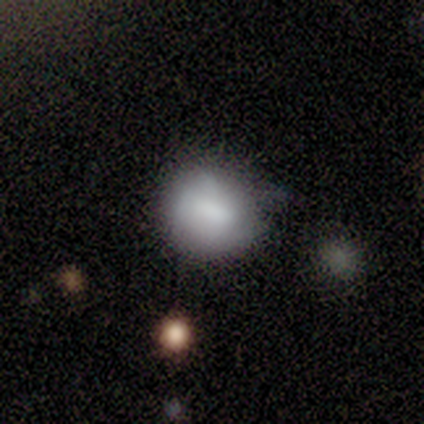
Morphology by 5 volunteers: Smooth or featured: smooth — 80% (featured or disk — 20%)
How rounded: in between — 75% (round — 25%)
Merging: minor disturbance — 60% (none — 20%)